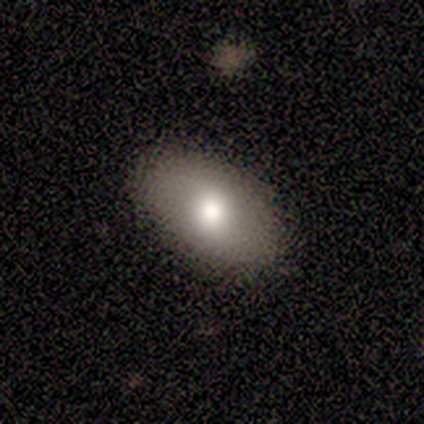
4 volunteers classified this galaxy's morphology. Q: Smooth or featured?
A: smooth (75%); runner-up: star or artifact (25%)
Q: How rounded?
A: in between (67%); runner-up: round (33%)
Q: Merging?
A: none (67%); runner-up: minor disturbance (33%)